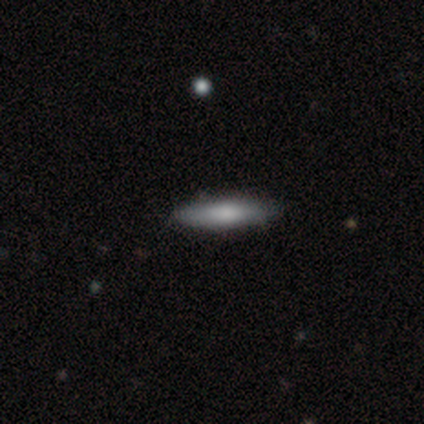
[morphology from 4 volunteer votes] smooth 75%, featured or disk 25%, star or artifact 0%. Down the decision tree: how rounded — cigar-shaped (100%); merging — none (100%).